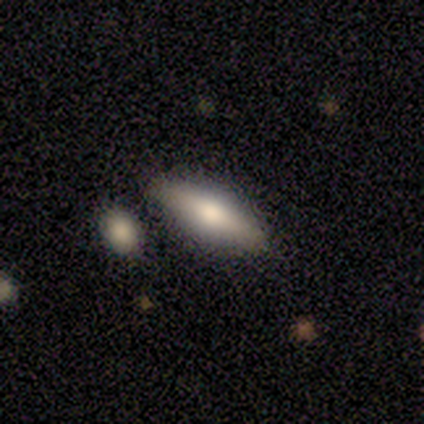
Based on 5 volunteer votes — smooth 60%, featured or disk 40%, star or artifact 0%. Down the decision tree: how rounded — in between (67%); merging — none (80%).